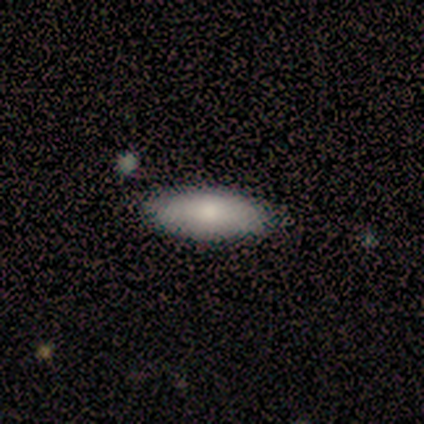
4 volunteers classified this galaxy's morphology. Smooth or featured: smooth — 50% (tied with featured or disk — 50%)
How rounded: in between — 50% (tied with cigar-shaped — 50%)
Merging: none — 75% (minor disturbance — 25%)